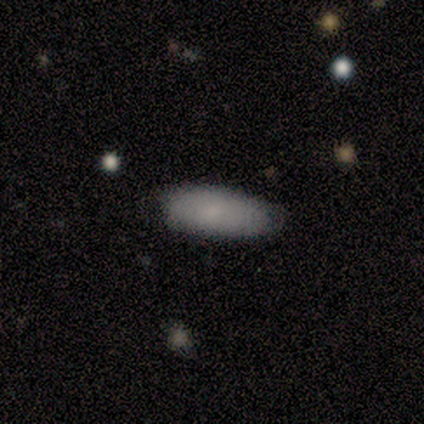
smooth 100%, featured or disk 0%, star or artifact 0%. Down the decision tree: how rounded — in between (83%); merging — none (100%).